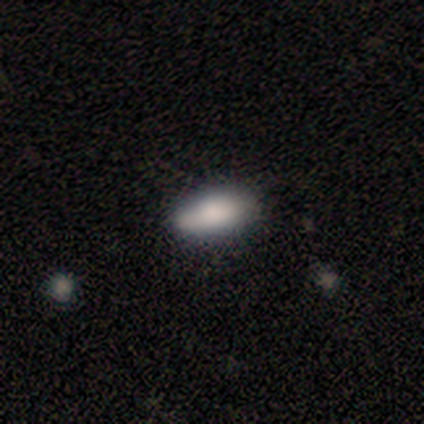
This appears to be a smooth galaxy with no disk features (100%) that is in between round and cigar-shaped (100%). Merging: none (80%).